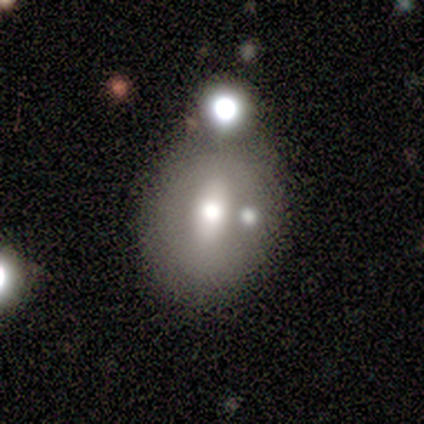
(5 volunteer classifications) Morphology: type=featured or disk (40%, tied with star or artifact); edge-on=no (100%); bar=weak (100%); spiral arms=no (100%); bulge=large (50%, tied with moderate); merging=minor disturbance (67%).